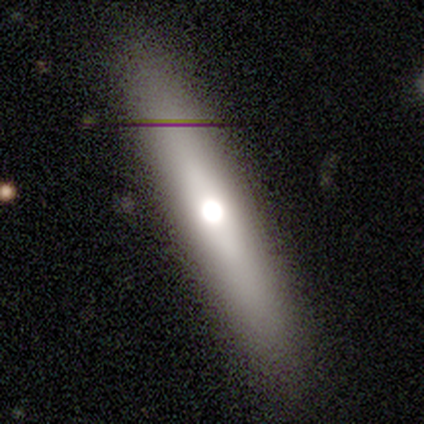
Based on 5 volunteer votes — Overall: smooth (40%, tied with featured or disk). How rounded: cigar-shaped (100%). Merging: none (75%).